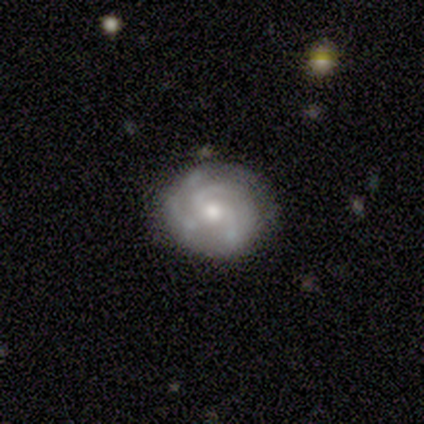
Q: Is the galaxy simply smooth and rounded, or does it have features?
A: featured or disk — 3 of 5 (60%).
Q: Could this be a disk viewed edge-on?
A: no — 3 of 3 (100%).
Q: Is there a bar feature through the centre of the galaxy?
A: no — 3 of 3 (100%).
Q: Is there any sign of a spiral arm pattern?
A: yes — 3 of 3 (100%).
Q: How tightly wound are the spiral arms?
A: tight — 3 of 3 (100%).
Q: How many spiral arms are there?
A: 3 — 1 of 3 (33%, tied with more than 4 and can't tell).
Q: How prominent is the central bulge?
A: moderate — 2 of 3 (67%).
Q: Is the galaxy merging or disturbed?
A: none — 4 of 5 (80%).